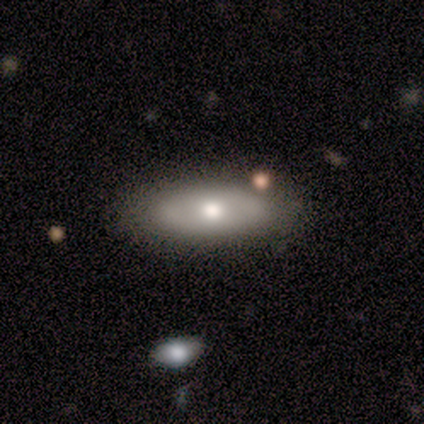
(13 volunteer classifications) A smooth galaxy with no disk features (62%) that is in between round and cigar-shaped (75%).

Vote fractions:
- Smooth or featured? smooth: 62% / featured or disk: 38% / star or artifact: 0%
- How rounded? in between: 75% / cigar-shaped: 25% / round: 0%
- Merging? none: 85% / minor disturbance: 8% / merger: 8% / major disturbance: 0%